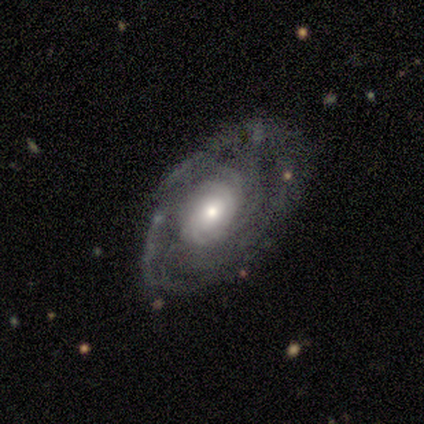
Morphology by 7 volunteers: Overall: featured or disk (100%). Edge-on disk: no (86%). Bar: no (100%). Spiral arms: yes (100%). Spiral arm count: can't tell (50%; 2 17%). Spiral winding: tight (50%, tied with medium). Bulge size: moderate (67%). Merging: none (57%; minor disturbance 29%).